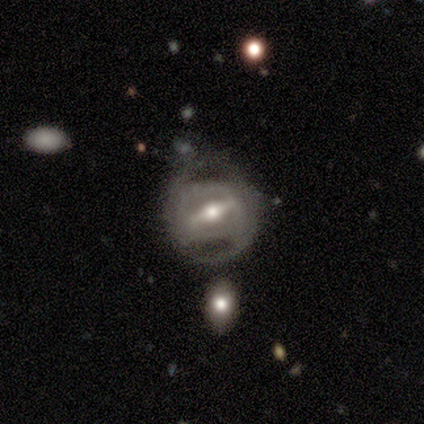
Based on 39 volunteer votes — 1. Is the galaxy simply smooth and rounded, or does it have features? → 90% featured or disk, 8% smooth, 3% star or artifact.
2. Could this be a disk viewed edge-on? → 80% no, 20% yes.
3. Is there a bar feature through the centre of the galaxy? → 75% strong, 21% weak, 4% no.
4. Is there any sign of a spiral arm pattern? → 71% yes, 29% no.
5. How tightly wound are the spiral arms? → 45% medium, 30% tight, 25% loose.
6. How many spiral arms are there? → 60% 2, 25% can't tell, 10% 4, 5% 3, 0% 1, 0% more than 4.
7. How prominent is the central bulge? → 64% moderate, 25% small, 11% large, 0% dominant, 0% none.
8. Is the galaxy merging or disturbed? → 68% none, 13% minor disturbance, 13% major disturbance, 5% merger.